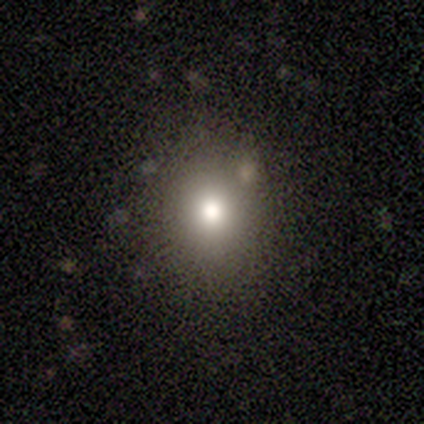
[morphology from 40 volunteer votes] This appears to be a smooth galaxy with no disk features (75%) that is round (60%). Merging: none (58%).